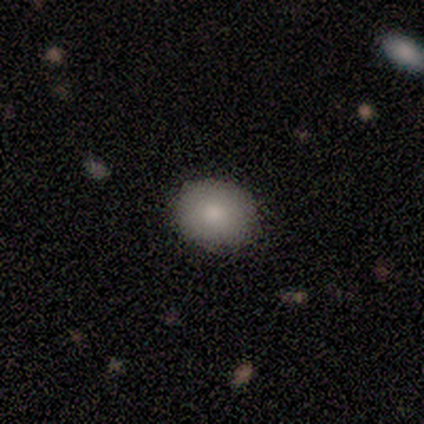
Volunteers were most divided on "how rounded": round: 75%, in between: 25%, cigar-shaped: 0%. More confident: merging — none (100%); smooth or featured — smooth (80%).